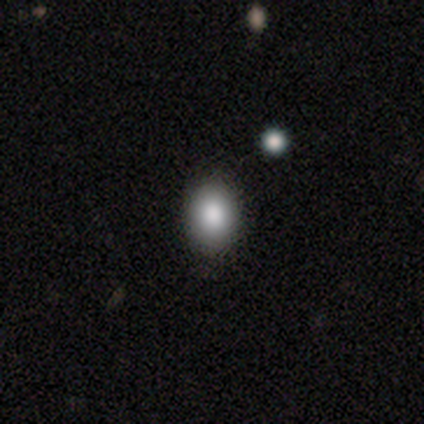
Smooth or featured? smooth (83%)
How rounded? in between (70%)
Merging? none (91%)